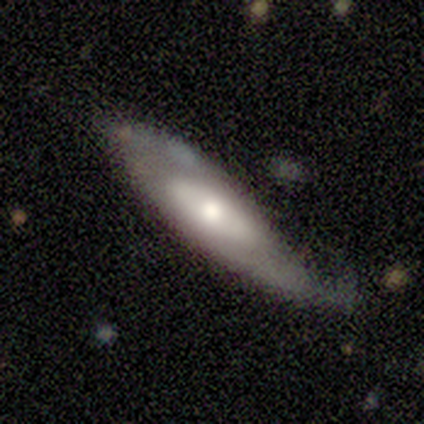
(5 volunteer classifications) Morphology: type=smooth (60%); roundness=in between (100%); merging=none (80%).